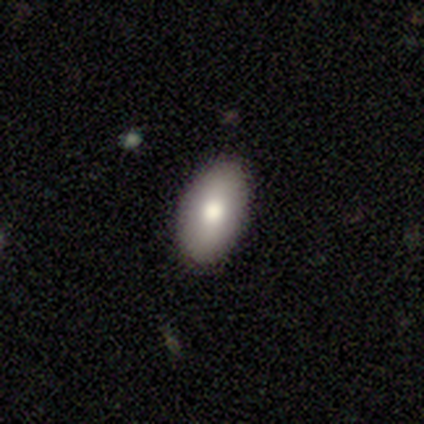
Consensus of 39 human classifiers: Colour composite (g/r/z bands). It shows a smooth galaxy with no disk features (82%) that is in between round and cigar-shaped (97%). Merging: none (92%).